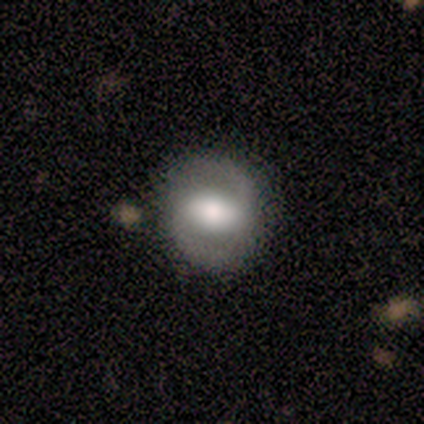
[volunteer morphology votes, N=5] smooth_or_featured: featured or disk (p=0.60) [alt: smooth p=0.40]
disk_edge_on: no (p=1.00)
bar: strong (p=0.33) [tied with: weak p=0.33, no p=0.33]
has_spiral_arms: yes (p=0.67) [alt: no p=0.33]
spiral_winding: tight (p=0.50) [tied with: loose p=0.50]
spiral_arm_count: 2 (p=1.00)
bulge_size: large (p=0.33) [tied with: moderate p=0.33, small p=0.33]
merging: none (p=0.60) [alt: minor disturbance p=0.20]